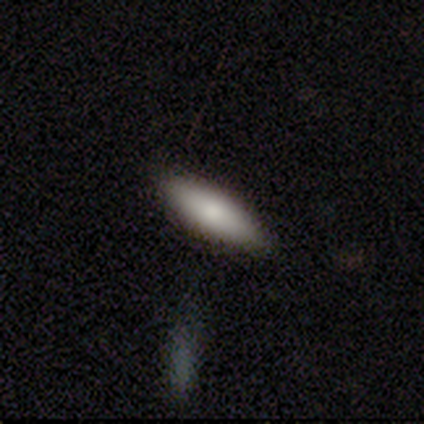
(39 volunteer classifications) Q: Smooth or featured?
A: smooth (74%); runner-up: featured or disk (13%)
Q: How rounded?
A: in between (62%); runner-up: cigar-shaped (38%)
Q: Merging?
A: none (79%); runner-up: minor disturbance (12%)